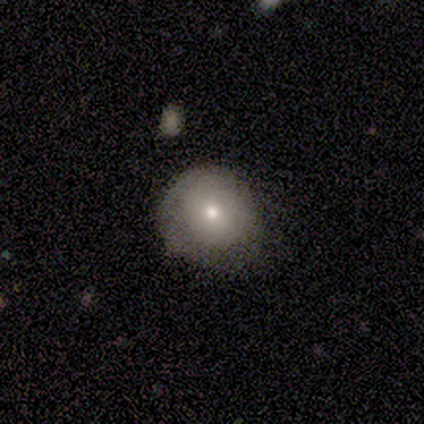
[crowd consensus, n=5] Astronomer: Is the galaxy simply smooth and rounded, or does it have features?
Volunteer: smooth — 100%.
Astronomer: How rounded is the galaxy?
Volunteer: round — 60% (runner-up: in between, 40%).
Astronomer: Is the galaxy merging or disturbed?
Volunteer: minor disturbance — 60% (runner-up: none, 40%).